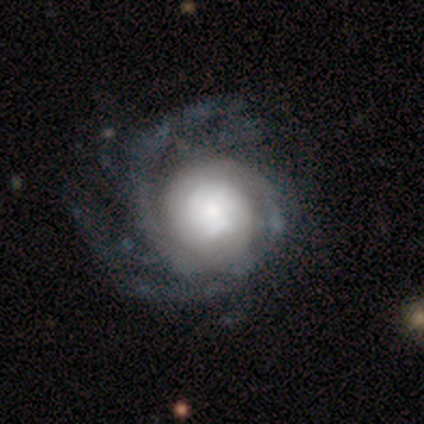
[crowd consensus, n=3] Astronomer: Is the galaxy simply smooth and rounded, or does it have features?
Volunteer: featured or disk — 67%.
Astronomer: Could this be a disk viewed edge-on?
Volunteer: no — 100%.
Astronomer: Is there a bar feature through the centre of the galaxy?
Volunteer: no — 100%.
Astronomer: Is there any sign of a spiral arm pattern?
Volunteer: yes — 100%.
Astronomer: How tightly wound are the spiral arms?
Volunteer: tight — 100%.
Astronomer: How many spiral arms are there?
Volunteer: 1 — 50%, tied with can't tell at 50%.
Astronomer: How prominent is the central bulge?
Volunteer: large — 100%.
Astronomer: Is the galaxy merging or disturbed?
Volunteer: none — 100%.